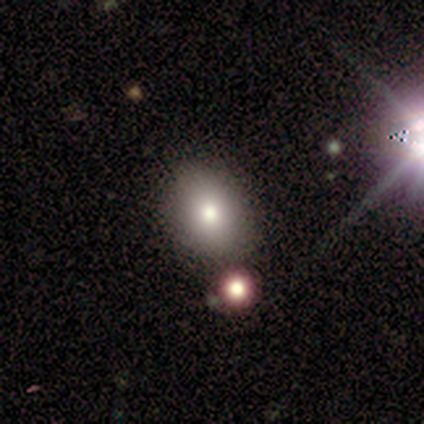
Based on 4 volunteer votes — Overall: smooth (75%). How rounded: in between (100%). Merging: none (100%).